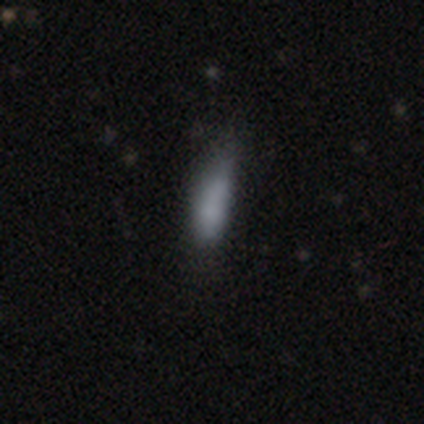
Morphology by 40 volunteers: A smooth galaxy with no disk features (75%) that is cigar-shaped (53%).

Vote fractions:
- Smooth or featured? smooth: 75% / featured or disk: 12% / star or artifact: 12%
- How rounded? cigar-shaped: 53% / in between: 40% / round: 7%
- Merging? none: 46% / minor disturbance: 43% / major disturbance: 9% / merger: 3%